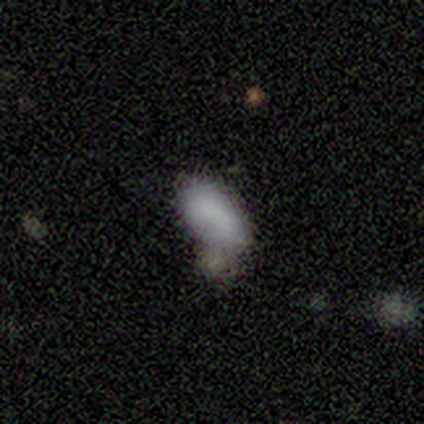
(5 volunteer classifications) smooth 100%, featured or disk 0%, star or artifact 0%. Down the decision tree: how rounded — in between (80%); merging — none (60%).